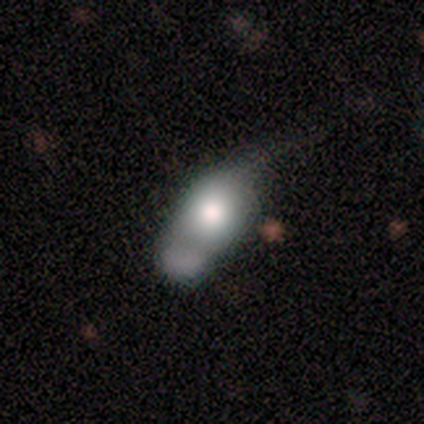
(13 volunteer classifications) This is likely a smooth galaxy (62%). How rounded: marginally round (38%, tied with in between). Merging: possibly major disturbance (46%).